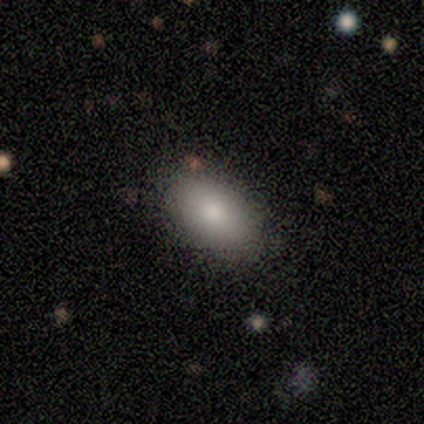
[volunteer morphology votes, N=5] Overall: smooth (80%). How rounded: in between (75%). Merging: none (60%; minor disturbance 20%).